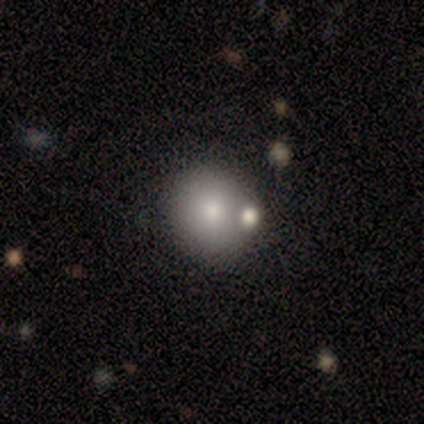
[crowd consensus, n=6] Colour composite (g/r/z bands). It shows a smooth galaxy with no disk features (50%) that is round (100%). Merging: none (80%).